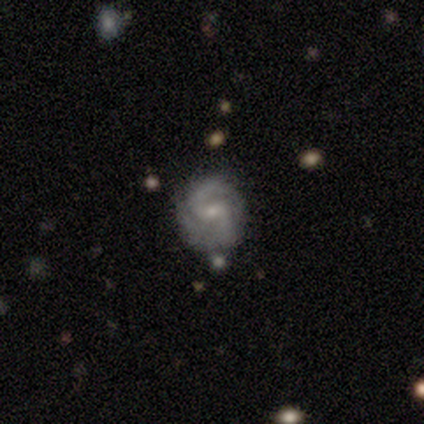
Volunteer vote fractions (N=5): Q: Smooth or featured?
A: featured or disk (80%); runner-up: smooth (20%)
Q: Edge-on disk?
A: no (100%)
Q: Bar?
A: weak (50%); tied with: no (50%)
Q: Spiral arms?
A: yes (100%)
Q: Spiral winding?
A: medium (75%); runner-up: tight (25%)
Q: Spiral arm count?
A: 2 (100%)
Q: Bulge size?
A: small (100%)
Q: Merging?
A: none (60%); runner-up: minor disturbance (20%)